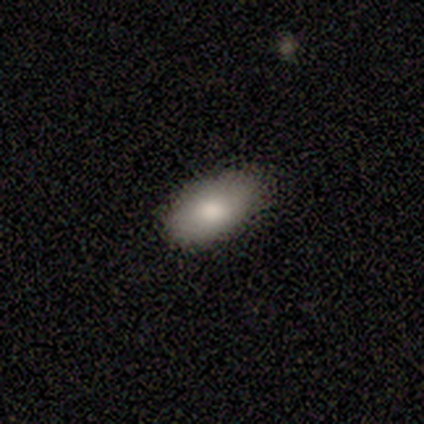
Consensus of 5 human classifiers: Volunteers were most divided on "merging": none: 80%, minor disturbance: 20%, major disturbance: 0%, merger: 0%. More confident: smooth or featured — smooth (100%); how rounded — in between (100%).